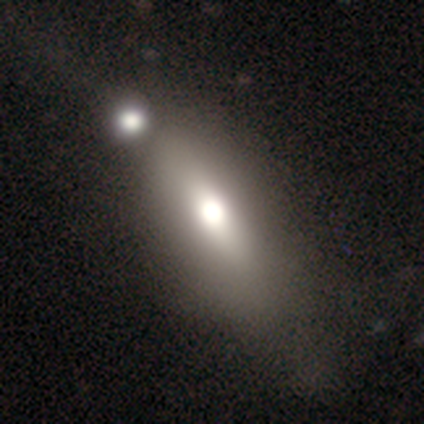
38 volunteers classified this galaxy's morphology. This is likely a smooth galaxy (68%). How rounded: likely in between (77%). Merging: marginally none (42%).